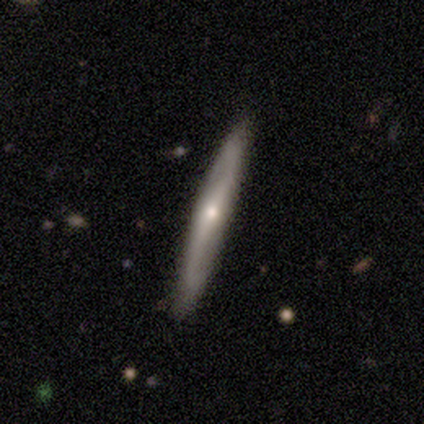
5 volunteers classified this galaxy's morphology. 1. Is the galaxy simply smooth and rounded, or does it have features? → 60% smooth, 40% featured or disk, 0% star or artifact.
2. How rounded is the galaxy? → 100% cigar-shaped, 0% round, 0% in between.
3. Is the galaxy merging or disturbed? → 80% none, 20% minor disturbance, 0% major disturbance, 0% merger.